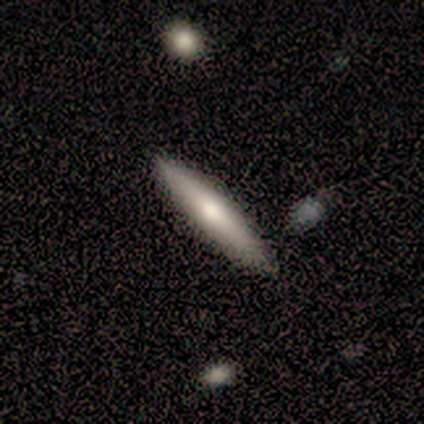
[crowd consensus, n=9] Smooth or featured? smooth (56%)
How rounded? cigar-shaped (100%)
Merging? none (78%)